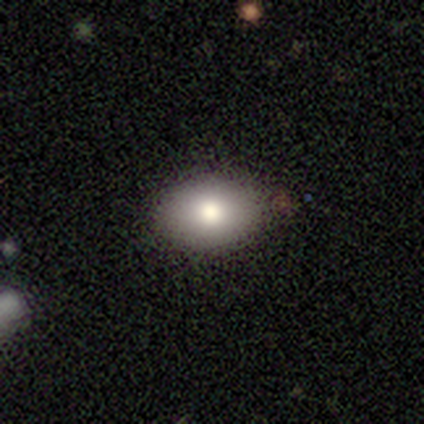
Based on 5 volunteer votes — This is clearly a smooth galaxy (100%). How rounded: clearly in between (100%). Merging: clearly none (80%).